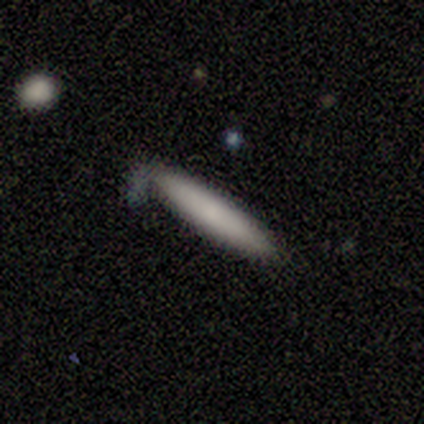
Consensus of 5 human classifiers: smooth_or_featured: smooth (p=0.60) [alt: featured or disk p=0.40]
how_rounded: cigar-shaped (p=1.00)
merging: none (p=1.00)